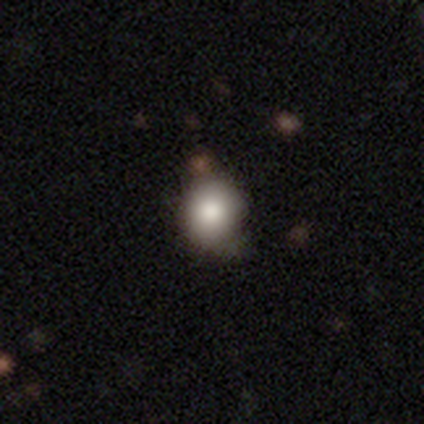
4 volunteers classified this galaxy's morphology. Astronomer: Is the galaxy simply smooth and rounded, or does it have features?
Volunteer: smooth — 100%.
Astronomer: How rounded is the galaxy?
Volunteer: round — 75%.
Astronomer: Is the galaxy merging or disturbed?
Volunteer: none — 50%.